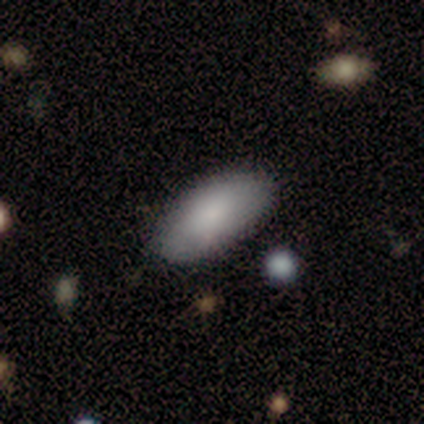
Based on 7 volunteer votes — This appears to be a smooth galaxy with no disk features (100%) that is in between round and cigar-shaped (100%). Merging: none (100%).